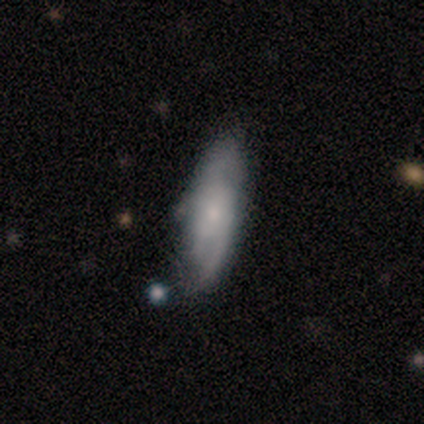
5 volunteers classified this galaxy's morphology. Smooth or featured? 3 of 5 (60%) said smooth. How rounded? 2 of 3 (67%) said in between. Merging? 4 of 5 (80%) said none.